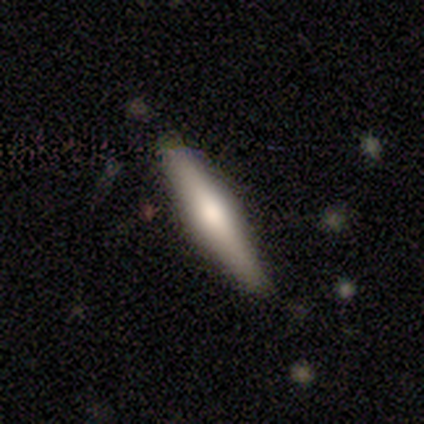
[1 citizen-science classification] featured or disk 100%, smooth 0%, star or artifact 0%. Down the decision tree: edge-on disk — yes (100%); edge-on bulge — rounded (100%); merging — none (100%).